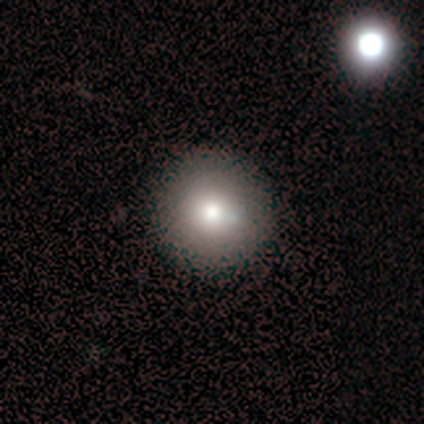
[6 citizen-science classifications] Overall: smooth (50%; featured or disk 33%). How rounded: round (100%). Merging: none (100%).